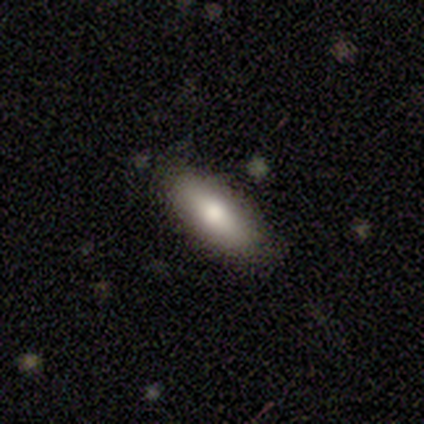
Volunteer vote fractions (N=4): Smooth or featured: smooth — 50% (tied with featured or disk — 50%)
How rounded: in between — 100%
Merging: none — 100%